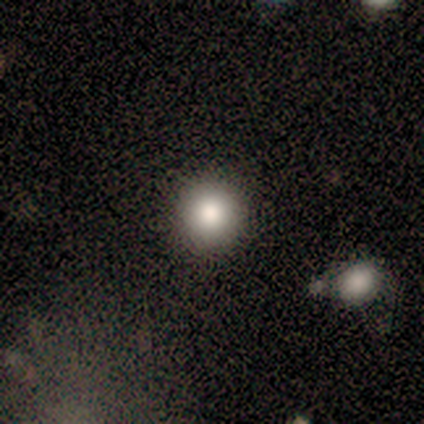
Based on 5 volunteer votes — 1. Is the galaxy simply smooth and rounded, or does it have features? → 80% smooth, 20% star or artifact, 0% featured or disk.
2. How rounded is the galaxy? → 100% round, 0% in between, 0% cigar-shaped.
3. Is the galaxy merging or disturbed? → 100% none, 0% minor disturbance, 0% major disturbance, 0% merger.